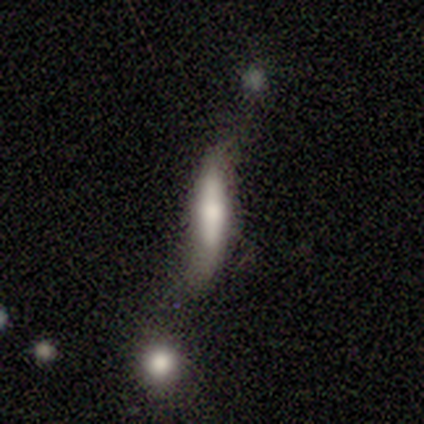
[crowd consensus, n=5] Smooth or featured? featured or disk (60%)
Edge-on disk? yes (100%)
Edge-on bulge? rounded (67%)
Merging? major disturbance (40%)